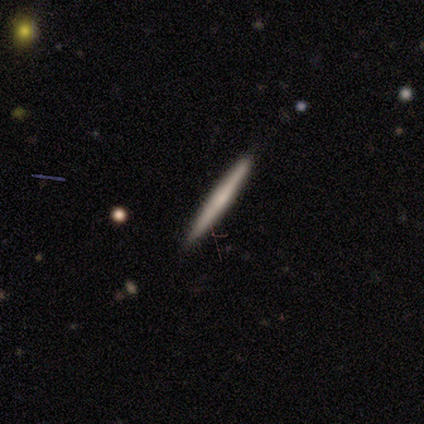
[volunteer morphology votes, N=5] smooth_or_featured: smooth (p=0.80) [alt: featured or disk p=0.20]
how_rounded: cigar-shaped (p=1.00)
merging: none (p=1.00)